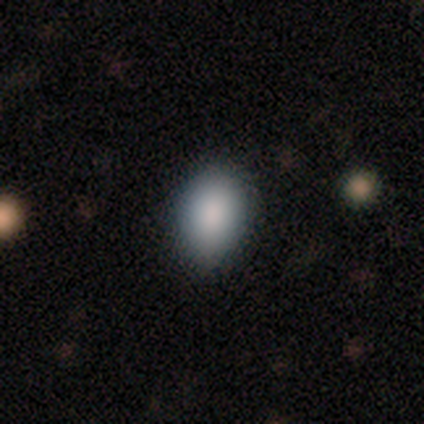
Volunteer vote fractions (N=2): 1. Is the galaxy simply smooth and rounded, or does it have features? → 100% smooth, 0% featured or disk, 0% star or artifact.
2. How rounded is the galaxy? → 100% in between, 0% round, 0% cigar-shaped.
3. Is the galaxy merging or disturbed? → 100% none, 0% minor disturbance, 0% major disturbance, 0% merger.